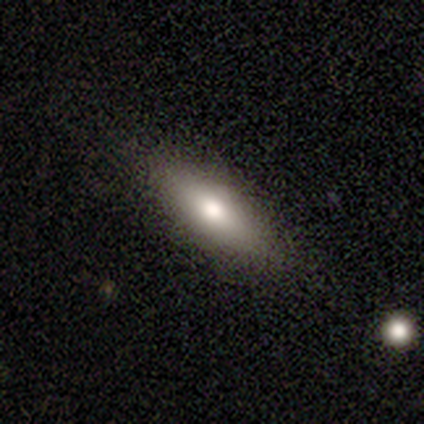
smooth-or-featured: smooth: 60% | featured or disk: 40% | star or artifact: 0%
  how-rounded: cigar-shaped: 67% | in between: 33% | round: 0%
  merging: none: 80% | minor disturbance: 20% | major disturbance: 0% | merger: 0%